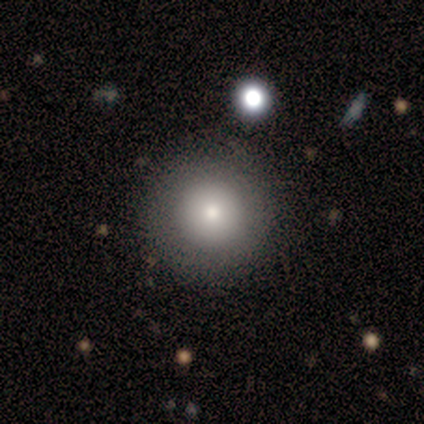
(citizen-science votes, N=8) Overall: smooth (62%; featured or disk 25%). How rounded: round (100%). Merging: none (100%).